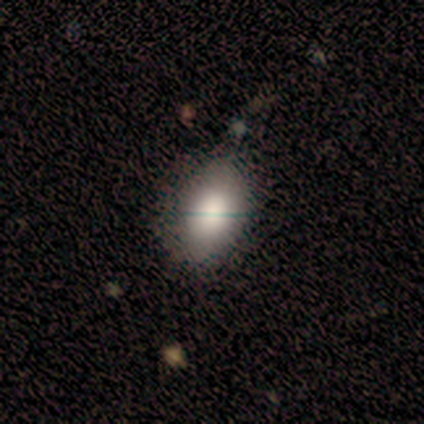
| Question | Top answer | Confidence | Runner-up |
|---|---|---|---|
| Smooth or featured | smooth | 100% | — |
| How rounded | in between | 60% | round (40%) |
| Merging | none | 100% | — |